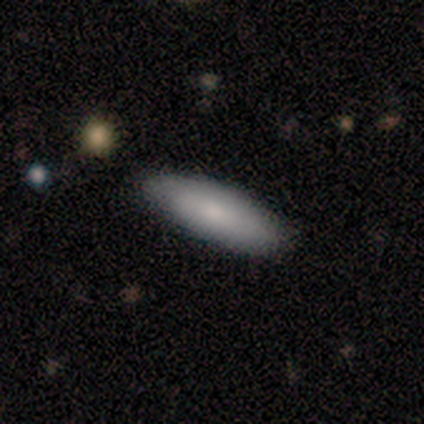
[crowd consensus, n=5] This is clearly a smooth galaxy (100%). How rounded: clearly in between (80%). Merging: clearly none (100%).